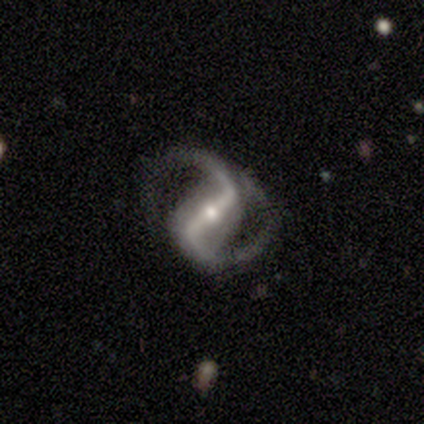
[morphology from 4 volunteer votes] Overall: featured or disk (100%). Edge-on disk: no (100%). Bar: strong (75%). Spiral arms: yes (100%). Spiral arm count: 2 (100%). Spiral winding: loose (50%; tight 25%). Bulge size: moderate (50%, tied with small). Merging: minor disturbance (75%).